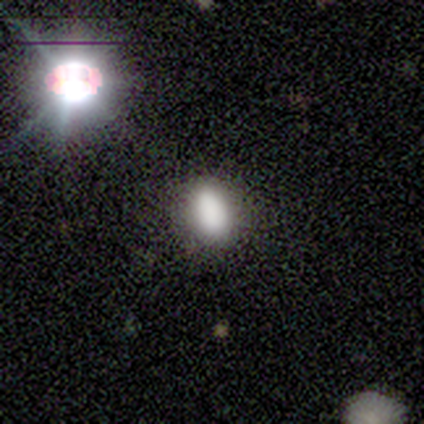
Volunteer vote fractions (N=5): This appears to be a smooth galaxy with no disk features (80%) that is in between round and cigar-shaped (75%). Merging: none (50%, tied with minor disturbance).